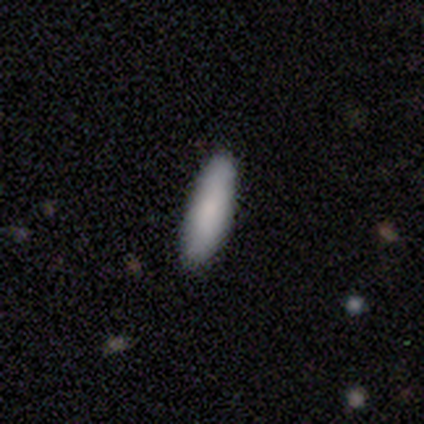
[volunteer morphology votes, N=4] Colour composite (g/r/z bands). It shows a smooth galaxy with no disk features (75%) that is cigar-shaped (67%). Merging: none (50%).